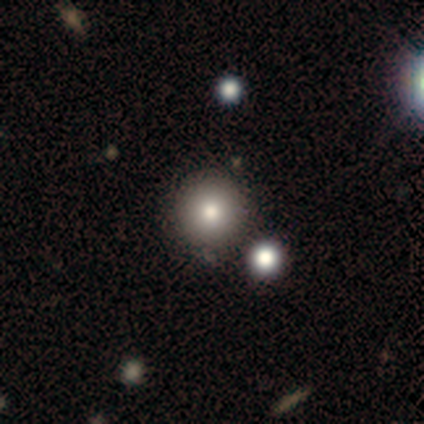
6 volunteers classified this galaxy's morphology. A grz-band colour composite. It shows a smooth galaxy with no disk features (67%) that is round (100%). Merging: none (80%).